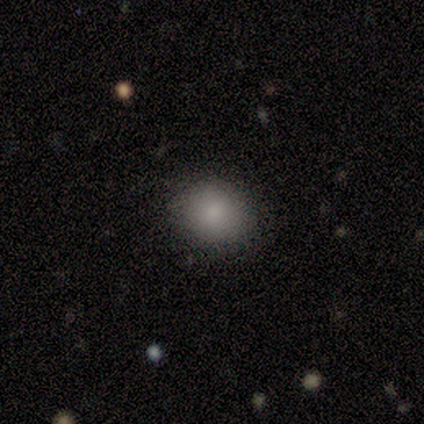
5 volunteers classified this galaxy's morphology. This appears to be a smooth galaxy with no disk features (80%) that is round (50%, tied with in between). Merging: none (80%).